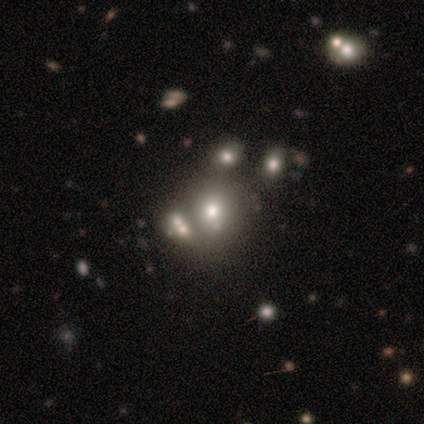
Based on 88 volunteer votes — This is possibly a smooth galaxy (52%). How rounded: likely round (78%). Merging: marginally none (45%).